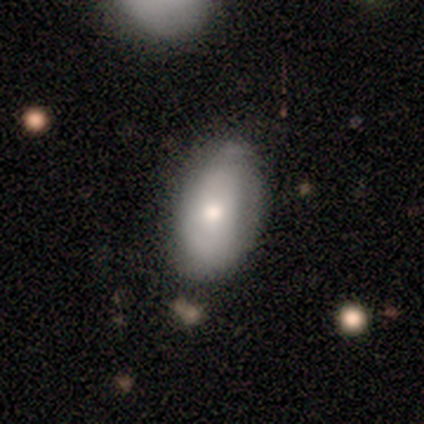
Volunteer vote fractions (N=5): A smooth galaxy with no disk features (80%) that is in between round and cigar-shaped (100%).

Vote fractions:
- Smooth or featured? smooth: 80% / featured or disk: 20% / star or artifact: 0%
- How rounded? in between: 100% / round: 0% / cigar-shaped: 0%
- Merging? none: 100% / minor disturbance: 0% / major disturbance: 0% / merger: 0%